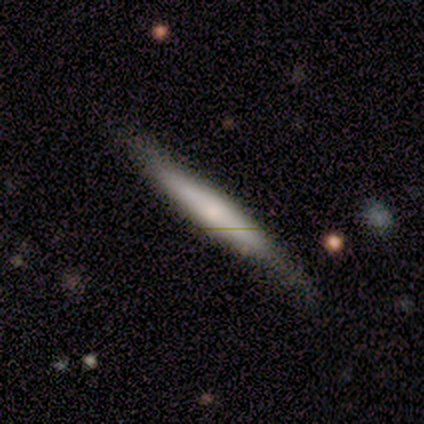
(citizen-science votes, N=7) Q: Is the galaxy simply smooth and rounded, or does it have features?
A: smooth — 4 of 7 (57%).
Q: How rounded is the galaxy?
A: cigar-shaped — 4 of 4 (100%).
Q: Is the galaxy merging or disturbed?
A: none — 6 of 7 (86%).